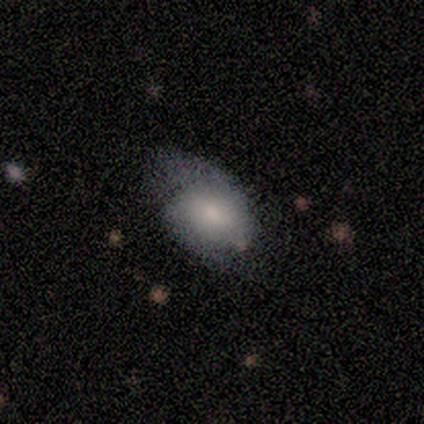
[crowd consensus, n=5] Volunteers were most divided on "merging": minor disturbance: 60%, none: 20%, major disturbance: 20%, merger: 0%. More confident: smooth or featured — smooth (100%); how rounded — in between (80%).